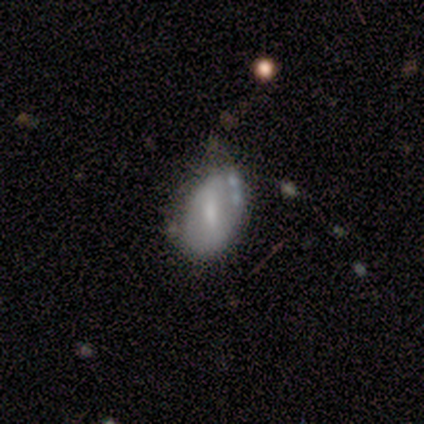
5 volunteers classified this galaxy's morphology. Smooth or featured? featured or disk (60%)
Edge-on disk? no (100%)
Bar? strong (33%, tied with weak and no)
Spiral arms? no (100%)
Bulge size? moderate (67%)
Merging? none (60%)